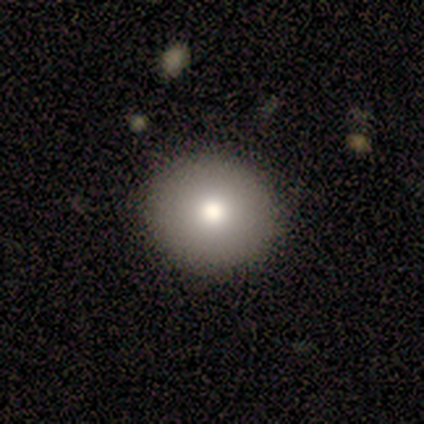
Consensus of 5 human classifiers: Volunteers were most divided on "smooth or featured": smooth: 60%, featured or disk: 40%, star or artifact: 0%. More confident: how rounded — round (100%); merging — none (80%).